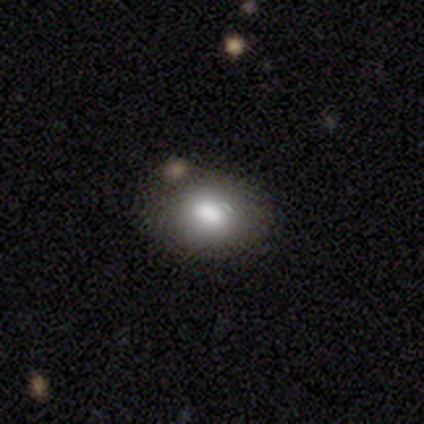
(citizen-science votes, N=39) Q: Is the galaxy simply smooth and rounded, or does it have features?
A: smooth — 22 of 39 (56%).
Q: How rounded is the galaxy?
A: in between — 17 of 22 (77%).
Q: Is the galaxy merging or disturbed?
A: none — 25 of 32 (78%).